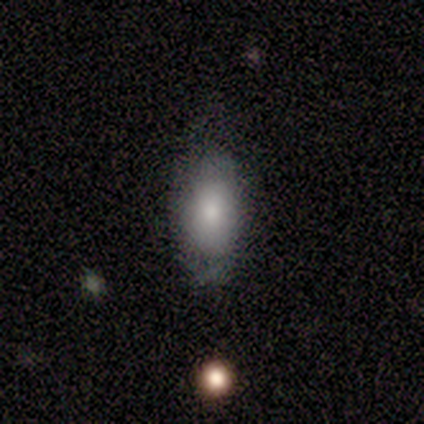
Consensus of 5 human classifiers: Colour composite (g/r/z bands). It shows a smooth galaxy with no disk features (100%) that is in between round and cigar-shaped (80%). Merging: none (60%).